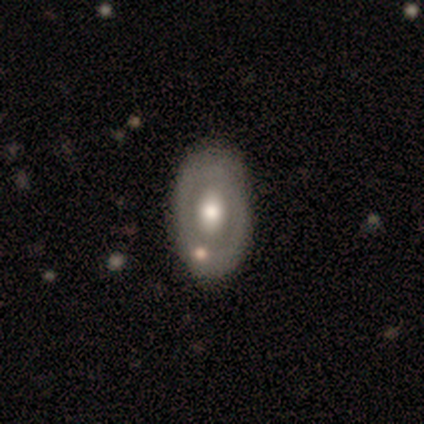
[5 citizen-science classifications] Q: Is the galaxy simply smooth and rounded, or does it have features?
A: featured or disk — 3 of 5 (60%).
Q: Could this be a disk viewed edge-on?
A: no — 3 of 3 (100%).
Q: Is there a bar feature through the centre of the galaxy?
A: weak — 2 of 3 (67%).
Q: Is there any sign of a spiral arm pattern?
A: no — 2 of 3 (67%).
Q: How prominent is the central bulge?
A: moderate — 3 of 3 (100%).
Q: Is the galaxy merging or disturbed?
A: none — 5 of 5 (100%).